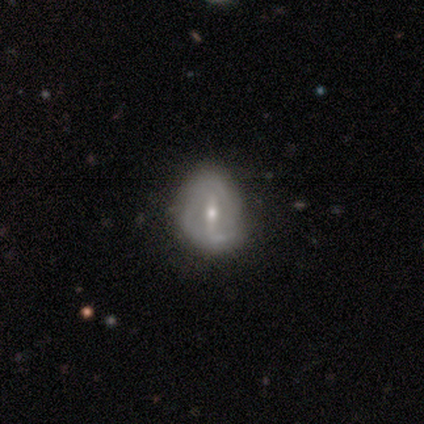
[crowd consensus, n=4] Volunteers were most divided on "smooth or featured" (2-way tie): smooth: 50%, featured or disk: 50%, star or artifact: 0%; "how rounded" (2-way tie): round: 50%, in between: 50%, cigar-shaped: 0%. More confident: merging — minor disturbance (50%).